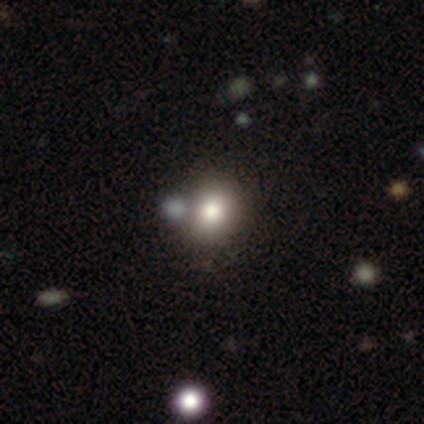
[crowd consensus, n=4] Volunteers were most divided on "smooth or featured": smooth: 50%, featured or disk: 25%, star or artifact: 25%. More confident: how rounded — in between (100%); merging — none (100%).